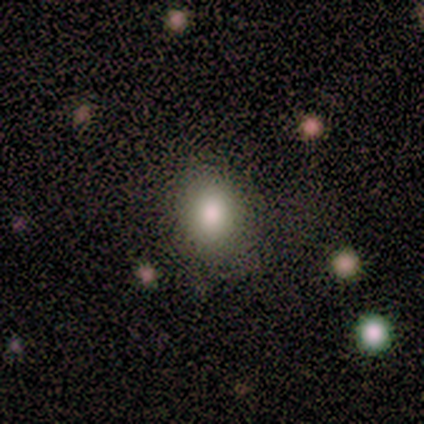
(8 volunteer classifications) Morphology: type=smooth (88%); roundness=in between (57%); merging=none (86%).